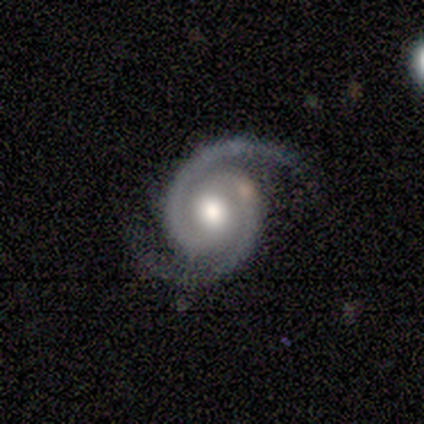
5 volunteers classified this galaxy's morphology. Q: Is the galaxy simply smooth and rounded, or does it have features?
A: featured or disk — 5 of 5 (100%).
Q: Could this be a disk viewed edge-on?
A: no — 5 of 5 (100%).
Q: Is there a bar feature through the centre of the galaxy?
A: no — 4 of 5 (80%).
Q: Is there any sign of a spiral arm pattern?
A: yes — 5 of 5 (100%).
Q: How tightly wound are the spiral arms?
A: medium — 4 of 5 (80%).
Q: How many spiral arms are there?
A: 2 — 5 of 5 (100%).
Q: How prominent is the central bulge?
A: moderate — 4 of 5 (80%).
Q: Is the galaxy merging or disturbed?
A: none — 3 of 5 (60%).